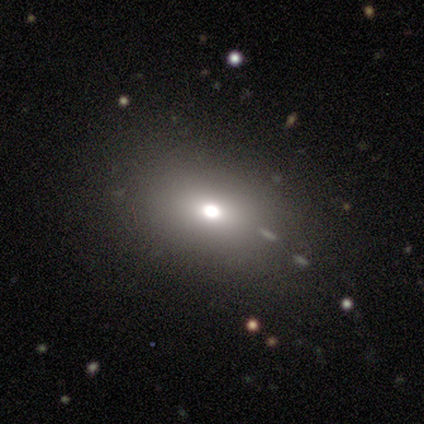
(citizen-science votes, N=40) Smooth or featured: smooth — 55% (star or artifact — 25%)
How rounded: in between — 73% (round — 27%)
Merging: none — 77% (minor disturbance — 13%)